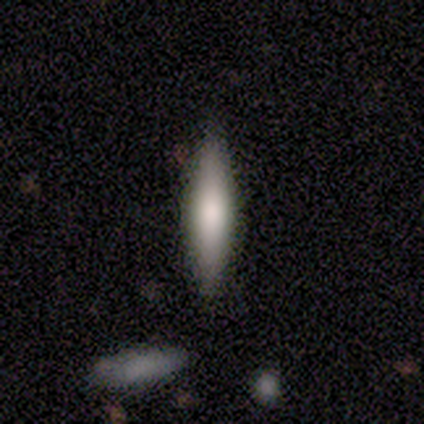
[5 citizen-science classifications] This is clearly a smooth galaxy (100%). How rounded: clearly cigar-shaped (80%). Merging: clearly none (100%).